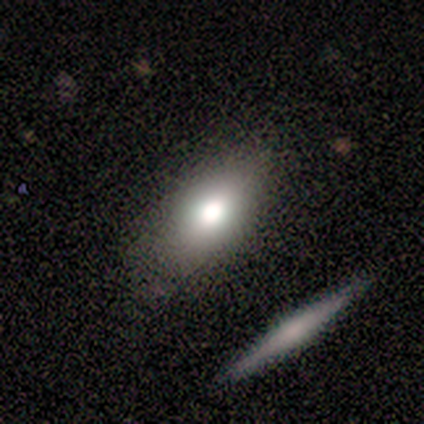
Smooth or featured?
  - smooth: 71% *
  - featured or disk: 14%
  - star or artifact: 14%
How rounded?
  - in between: 100% *
  - round: 0%
  - cigar-shaped: 0%
Merging?
  - none: 100% *
  - minor disturbance: 0%
  - major disturbance: 0%
  - merger: 0%